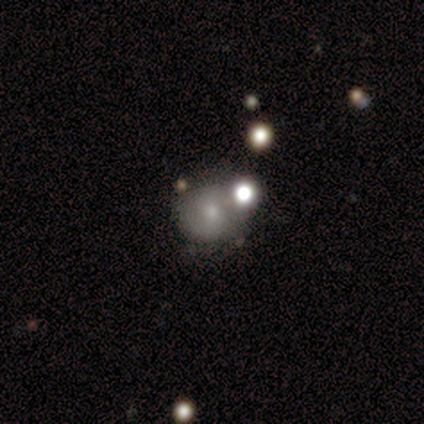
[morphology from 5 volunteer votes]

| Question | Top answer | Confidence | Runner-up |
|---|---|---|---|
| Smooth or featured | smooth | 40% | tied: featured or disk (40%) |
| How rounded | round | 100% | — |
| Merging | none | 50% | tied: merger (50%) |